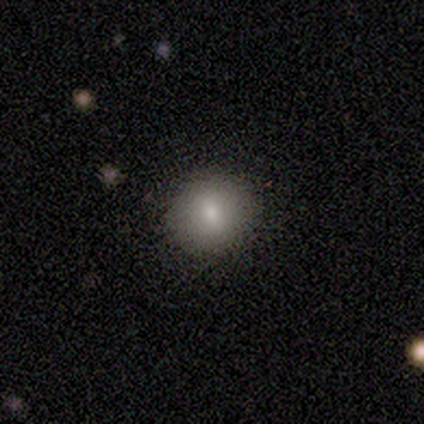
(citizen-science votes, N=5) Smooth or featured?
  - smooth: 60% *
  - featured or disk: 20%
  - star or artifact: 20%
How rounded?
  - round: 100% *
  - in between: 0%
  - cigar-shaped: 0%
Merging?
  - none: 100% *
  - minor disturbance: 0%
  - major disturbance: 0%
  - merger: 0%